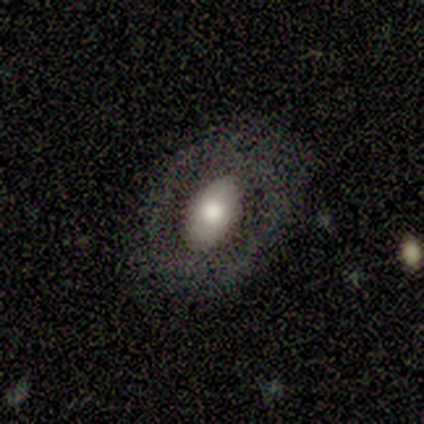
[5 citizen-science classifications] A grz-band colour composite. It shows a featured or disk galaxy (60%) with no bar (67%), no spiral arms (100%) and a large central bulge (67%). Merging: none (60%).